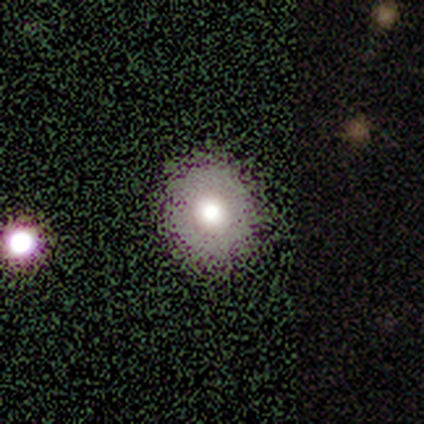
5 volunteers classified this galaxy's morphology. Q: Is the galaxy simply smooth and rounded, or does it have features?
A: smooth — 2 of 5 (40%, tied with featured or disk).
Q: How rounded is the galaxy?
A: round — 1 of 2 (50%, tied with in between).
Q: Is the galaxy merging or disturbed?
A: none — 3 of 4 (75%).